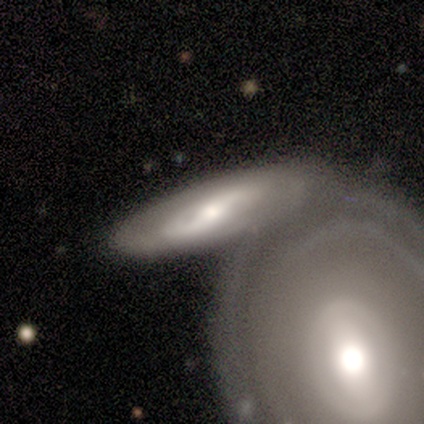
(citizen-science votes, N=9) This is possibly a smooth galaxy (56%). How rounded: clearly cigar-shaped (80%). Merging: likely merger (62%).